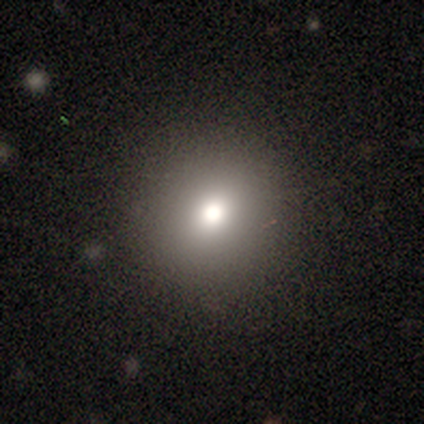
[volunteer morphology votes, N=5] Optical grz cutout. It shows a smooth galaxy with no disk features (100%) that is round (100%). Merging: none (100%).